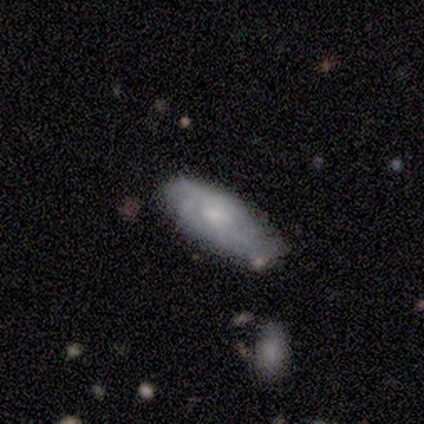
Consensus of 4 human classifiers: This is possibly a smooth galaxy (50%). How rounded: clearly in between (100%). Merging: clearly none (100%).